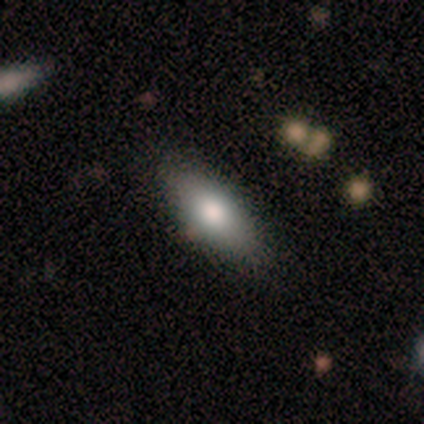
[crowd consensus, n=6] smooth-or-featured: smooth: 67% | featured or disk: 33% | star or artifact: 0%
  how-rounded: in between: 100% | round: 0% | cigar-shaped: 0%
  merging: none: 50% | minor disturbance: 33% | major disturbance: 17% | merger: 0%